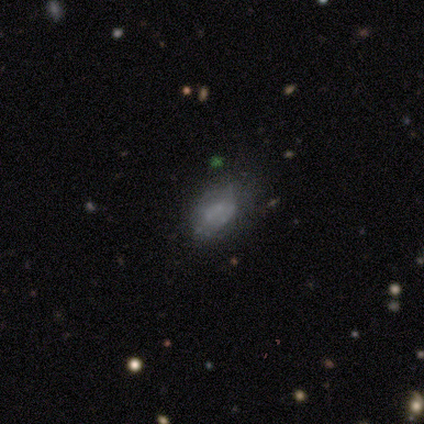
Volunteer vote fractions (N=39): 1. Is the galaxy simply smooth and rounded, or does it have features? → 49% featured or disk, 38% smooth, 13% star or artifact.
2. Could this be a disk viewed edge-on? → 100% no, 0% yes.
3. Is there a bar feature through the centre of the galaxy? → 95% no, 5% weak, 0% strong.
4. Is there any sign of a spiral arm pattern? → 95% no, 5% yes.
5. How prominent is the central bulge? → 95% none, 5% moderate, 0% dominant, 0% large, 0% small.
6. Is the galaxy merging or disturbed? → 41% none, 21% minor disturbance, 12% major disturbance, 3% merger.